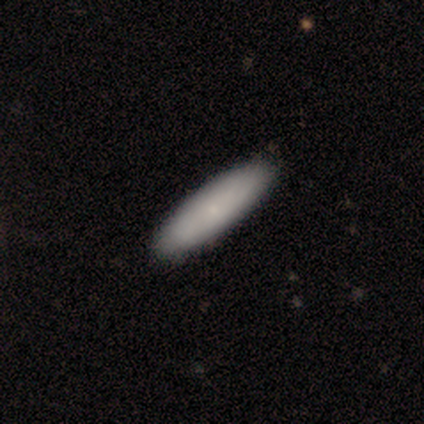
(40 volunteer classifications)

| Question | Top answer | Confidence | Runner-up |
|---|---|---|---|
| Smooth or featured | smooth | 88% | featured or disk (10%) |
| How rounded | cigar-shaped | 66% | in between (34%) |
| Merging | none | 95% | minor disturbance (5%) |